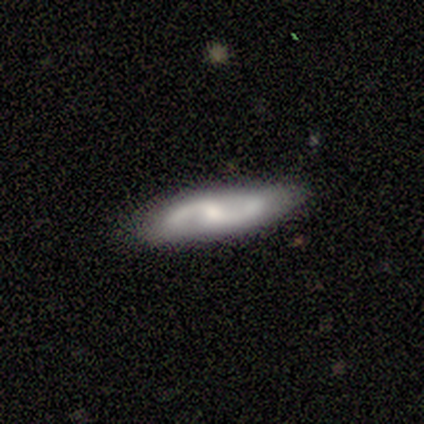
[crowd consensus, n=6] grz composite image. It shows a smooth galaxy with no disk features (67%) that is cigar-shaped (75%). Merging: none (83%).